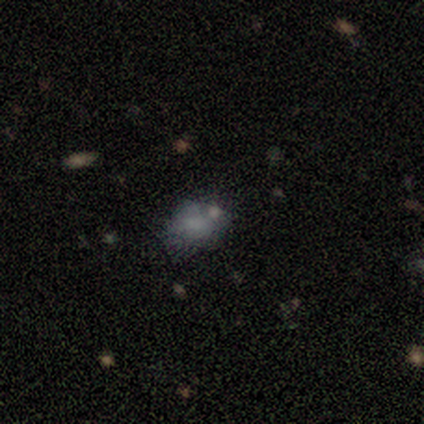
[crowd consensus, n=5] smooth 40% (tied), star or artifact 40% (tied), featured or disk 20%. Down the decision tree: how rounded — round (50%, tied with in between); merging — none (67%).